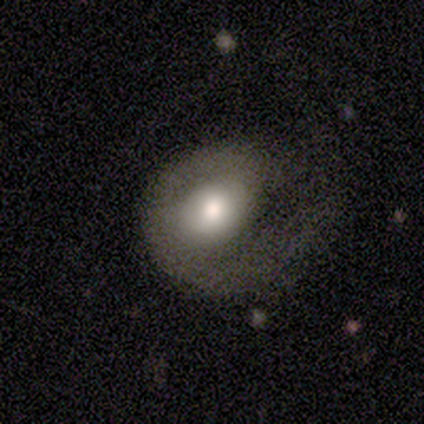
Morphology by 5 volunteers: Volunteers were most divided on "bar" (2-way tie): weak: 50%, no: 50%, strong: 0%; "spiral winding" (3-way tie): tight: 33%, medium: 33%, loose: 33%; "merging" (2-way tie): none: 40%, major disturbance: 40%, minor disturbance: 20%, merger: 0%. More confident: edge-on disk — no (100%); smooth or featured — featured or disk (80%); spiral arms — yes (75%); bulge size — moderate (75%); spiral arm count — 1 (67%).